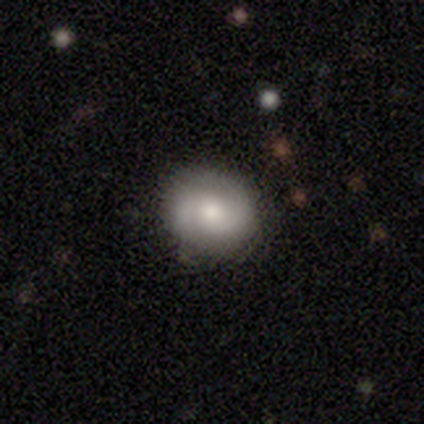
Q: Smooth or featured?
A: smooth (50%); runner-up: featured or disk (42%)
Q: How rounded?
A: round (60%); runner-up: in between (40%)
Q: Merging?
A: none (86%); runner-up: minor disturbance (14%)